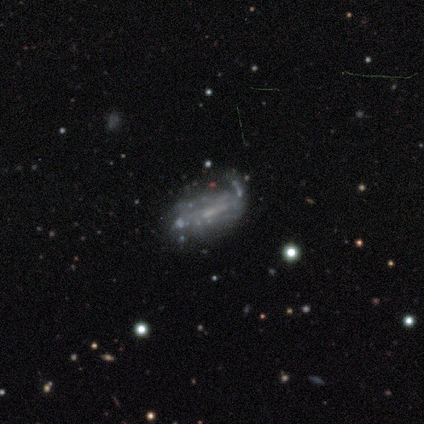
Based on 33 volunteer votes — Smooth or featured?
  - featured or disk: 58% *
  - smooth: 24%
  - star or artifact: 18%
Edge-on disk?
  - no: 95% *
  - yes: 5%
Bar?
  - weak: 61% *
  - no: 33%
  - strong: 6%
Spiral arms?
  - yes: 67% *
  - no: 33%
Spiral winding?
  - tight: 50% *
  - loose: 42%
  - medium: 8%
Spiral arm count?
  - can't tell: 58% *
  - 2: 25%
  - 1: 17%
  - 3: 0%
  - 4: 0%
  - more than 4: 0%
Bulge size?
  - none: 50% *
  - small: 33%
  - moderate: 17%
  - dominant: 0%
  - large: 0%
Merging?
  - minor disturbance: 41% *
  - none: 33%
  - major disturbance: 19%
  - merger: 7%